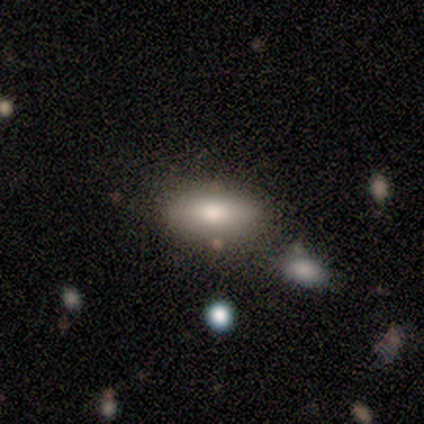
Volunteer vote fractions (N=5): smooth_or_featured: smooth (p=0.40) [tied with: featured or disk p=0.40]
how_rounded: in between (p=1.00)
merging: none (p=1.00)